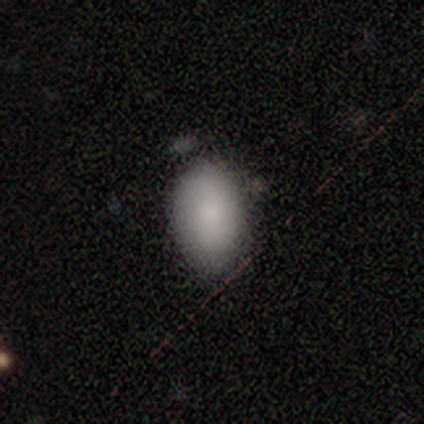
smooth-or-featured: smooth: 100% | featured or disk: 0% | star or artifact: 0%
  how-rounded: in between: 100% | round: 0% | cigar-shaped: 0%
  merging: none: 60% | minor disturbance: 40% | major disturbance: 0% | merger: 0%